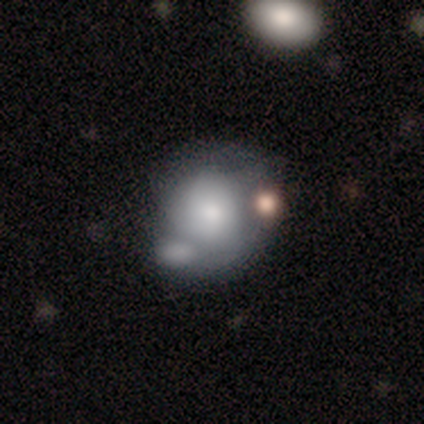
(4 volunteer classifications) Overall: featured or disk (100%). Edge-on disk: no (100%). Bar: no (100%). Spiral arms: yes (50%, tied with no). Spiral arm count: 2 (50%, tied with can't tell). Spiral winding: tight (100%). Bulge size: dominant (25%, tied with large, small and none). Merging: none (50%; major disturbance 25%).